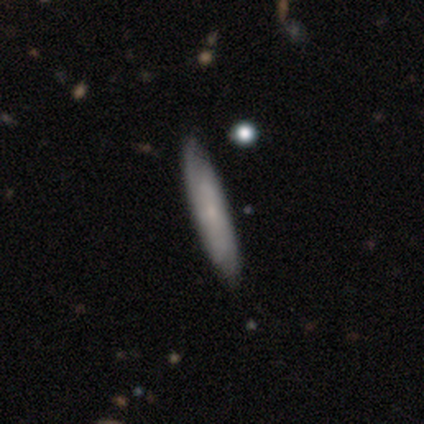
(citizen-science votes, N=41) This is possibly a smooth galaxy (51%). How rounded: clearly cigar-shaped (100%). Merging: clearly none (87%).